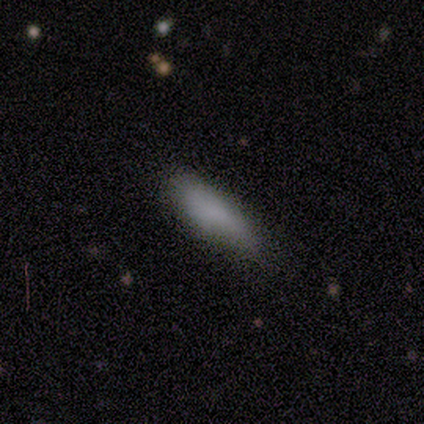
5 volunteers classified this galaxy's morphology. smooth 80%, featured or disk 20%, star or artifact 0%. Down the decision tree: how rounded — cigar-shaped (75%); merging — none (60%).